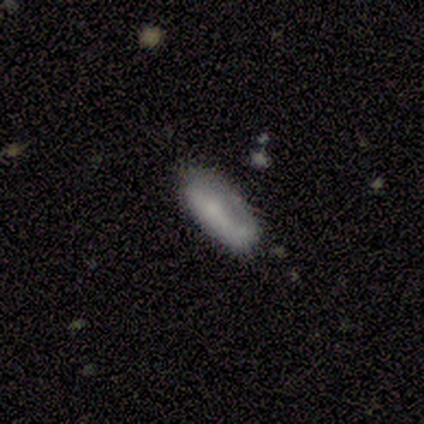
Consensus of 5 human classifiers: Smooth or featured? smooth (80%)
How rounded? in between (100%)
Merging? minor disturbance (60%)